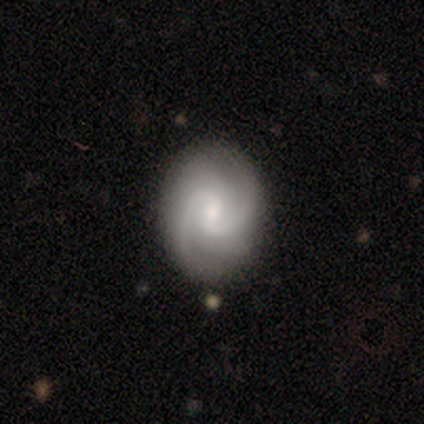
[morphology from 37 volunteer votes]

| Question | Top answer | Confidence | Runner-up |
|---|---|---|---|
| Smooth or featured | featured or disk | 78% | smooth (19%) |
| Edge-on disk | no | 100% | — |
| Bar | no | 48% | weak (41%) |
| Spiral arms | yes | 100% | — |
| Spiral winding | medium | 52% | tight (38%) |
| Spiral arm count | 2 | 83% | 3 (7%) |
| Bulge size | small | 69% | moderate (28%) |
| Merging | none | 94% | minor disturbance (3%) |